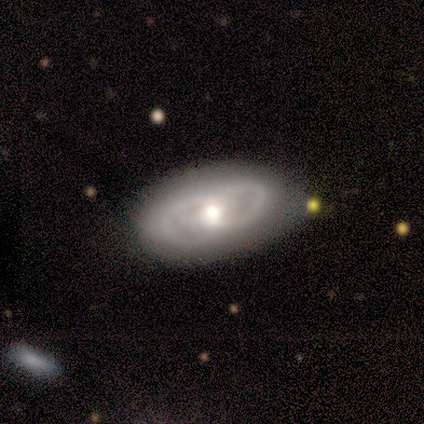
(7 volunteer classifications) This is likely a featured or disk galaxy (71%). It is clearly not viewed edge-on (100%). Bar: clearly no (80%). Spiral arm pattern: clearly yes (100%). Spiral arm count: clearly 2 (80%). Spiral winding: clearly medium (80%). Central bulge: likely moderate (60%). Merging: likely none (71%).